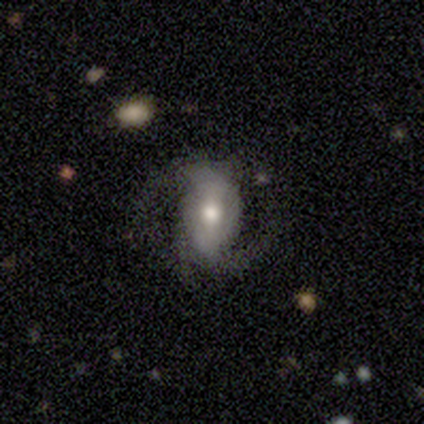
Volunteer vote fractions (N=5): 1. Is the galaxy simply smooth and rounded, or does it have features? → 80% featured or disk, 20% smooth, 0% star or artifact.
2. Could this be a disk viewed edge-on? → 100% no, 0% yes.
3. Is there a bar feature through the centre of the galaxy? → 50% strong, 25% weak, 25% no.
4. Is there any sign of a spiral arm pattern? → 100% yes, 0% no.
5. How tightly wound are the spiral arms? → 50% loose, 25% tight, 25% medium.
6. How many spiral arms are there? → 75% 2, 25% 3, 0% 1, 0% 4, 0% more than 4, 0% can't tell.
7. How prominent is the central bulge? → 50% large (tied), 50% moderate (tied), 0% dominant, 0% small, 0% none.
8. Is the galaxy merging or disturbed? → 60% none, 40% minor disturbance, 0% major disturbance, 0% merger.